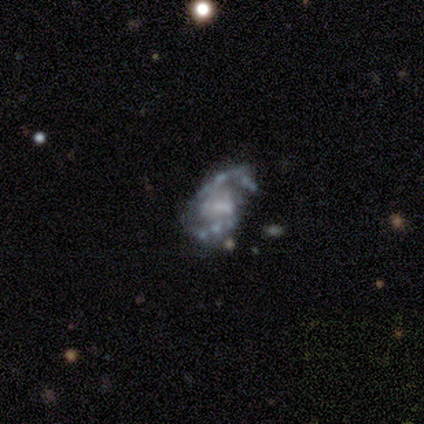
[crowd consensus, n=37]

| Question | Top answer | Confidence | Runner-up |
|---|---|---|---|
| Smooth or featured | featured or disk | 89% | star or artifact (11%) |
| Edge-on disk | no | 97% | yes (3%) |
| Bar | no | 62% | weak (28%) |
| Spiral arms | yes | 69% | no (31%) |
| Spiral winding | medium | 50% | tight (32%) |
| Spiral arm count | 2 | 86% | can't tell (9%) |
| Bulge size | none | 53% | small (34%) |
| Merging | none | 58% | minor disturbance (21%) |